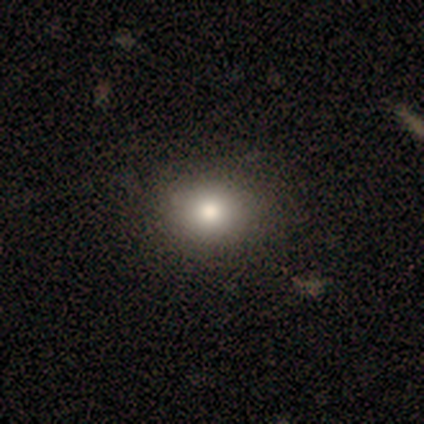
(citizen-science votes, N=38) Q: Smooth or featured?
A: smooth (82%); runner-up: featured or disk (13%)
Q: How rounded?
A: round (52%); runner-up: in between (48%)
Q: Merging?
A: none (75%); runner-up: minor disturbance (6%)